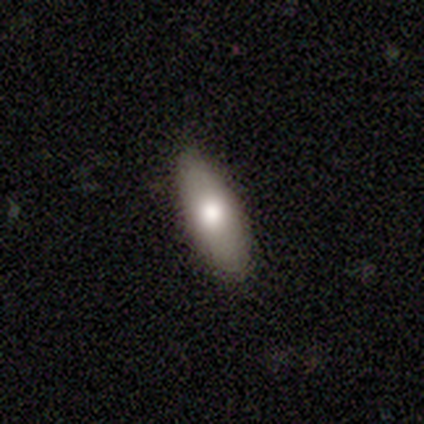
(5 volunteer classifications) Smooth or featured? smooth (40%, tied with featured or disk)
How rounded? in between (100%)
Merging? none (100%)